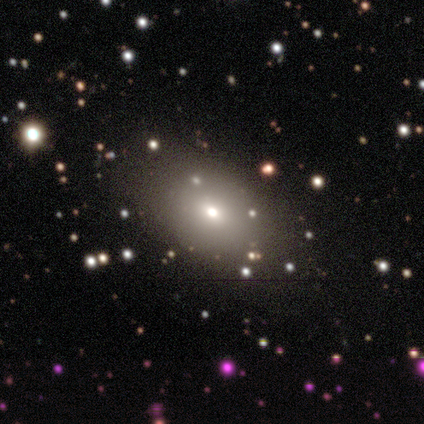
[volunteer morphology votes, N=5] Overall: smooth (100%). How rounded: in between (100%). Merging: none (80%).